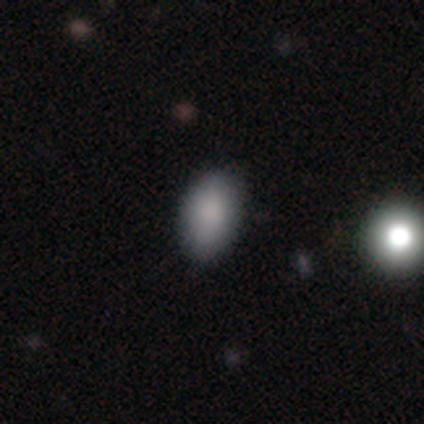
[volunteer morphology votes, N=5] Smooth or featured? 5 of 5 (100%) said smooth. How rounded? 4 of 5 (80%) said in between. Merging? 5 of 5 (100%) said none.